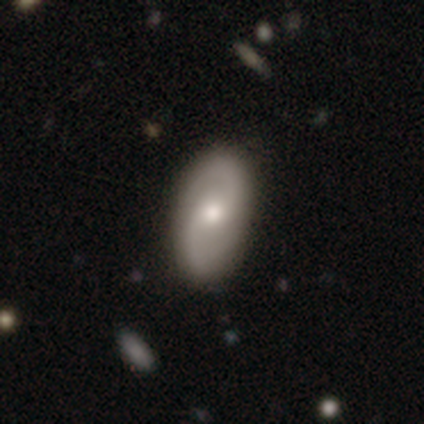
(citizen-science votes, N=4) Overall: featured or disk (50%; smooth 25%). Edge-on disk: no (100%). Bar: weak (100%). Spiral arms: yes (50%, tied with no). Spiral arm count: 2 (100%). Spiral winding: medium (100%). Bulge size: small (100%). Merging: none (100%).